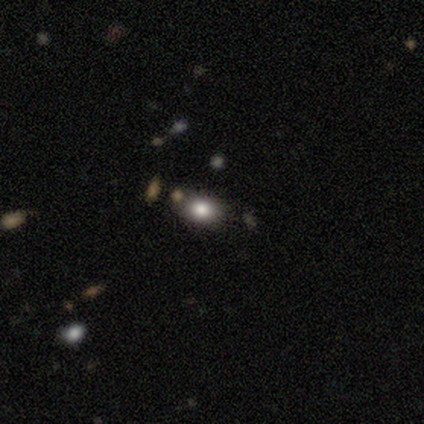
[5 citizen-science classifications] A smooth galaxy with no disk features (60%) that is in between round and cigar-shaped (67%).

Vote fractions:
- Smooth or featured? smooth: 60% / featured or disk: 20% / star or artifact: 20%
- How rounded? in between: 67% / round: 33% / cigar-shaped: 0%
- Merging? none: 100% / minor disturbance: 0% / major disturbance: 0% / merger: 0%